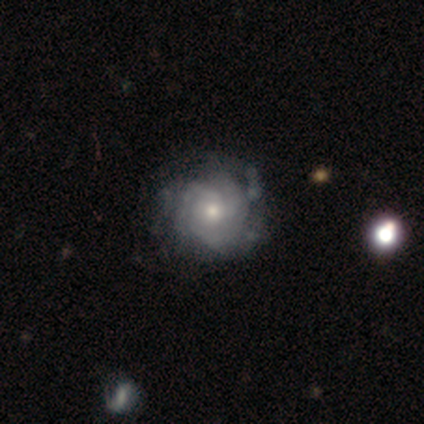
A featured or disk galaxy (85%) with no bar (91%), tight (75%) spiral arms (97%) and a moderate central bulge (61%). Merging: none (68%).